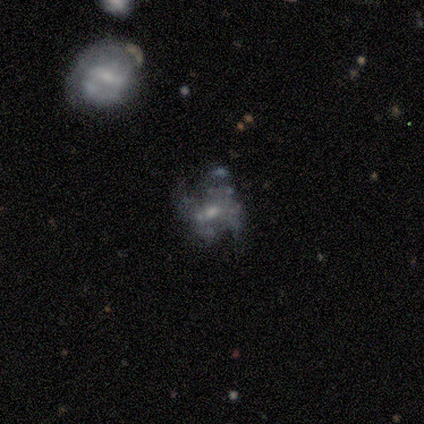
Smooth or featured?
  - featured or disk: 80% *
  - star or artifact: 20%
  - smooth: 0%
Edge-on disk?
  - no: 100% *
  - yes: 0%
Bar?
  - no: 75% *
  - weak: 25%
  - strong: 0%
Spiral arms?
  - yes: 50% * (tied)
  - no: 50% * (tied)
Spiral winding?
  - loose: 100% *
  - tight: 0%
  - medium: 0%
Spiral arm count?
  - 2: 100% *
  - 1: 0%
  - 3: 0%
  - 4: 0%
  - more than 4: 0%
  - can't tell: 0%
Bulge size?
  - moderate: 50% * (tied)
  - small: 50% * (tied)
  - dominant: 0%
  - large: 0%
  - none: 0%
Merging?
  - major disturbance: 50% *
  - none: 25%
  - minor disturbance: 25%
  - merger: 0%